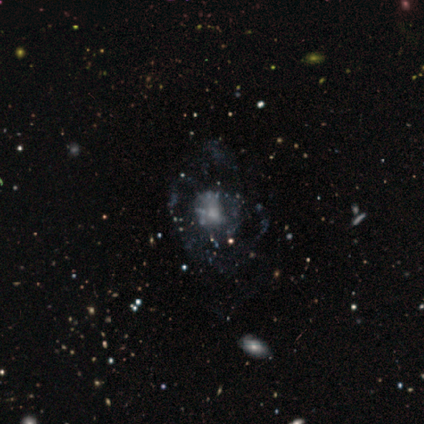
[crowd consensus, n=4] Smooth or featured: featured or disk — 75% (smooth — 25%)
Edge-on disk: no — 100%
Bar: no — 100%
Spiral arms: no — 100%
Bulge size: moderate — 33% (tied with small — 33%; none — 33%)
Merging: none — 75% (major disturbance — 25%)